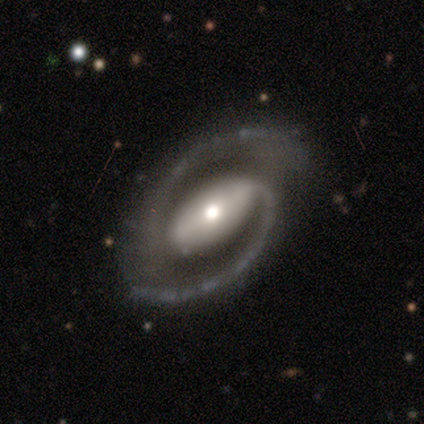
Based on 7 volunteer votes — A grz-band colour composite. It shows a featured or disk galaxy (100%) with a strong bar (86%), 2 (100%) medium (50%) spiral arms (86%) and a moderate central bulge (57%). Merging: none (86%).